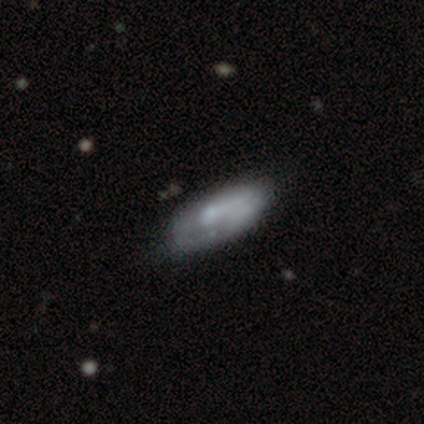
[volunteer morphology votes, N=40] Q: Smooth or featured?
A: featured or disk (57%); runner-up: smooth (42%)
Q: Edge-on disk?
A: no (74%); runner-up: yes (26%)
Q: Bar?
A: no (59%); runner-up: weak (29%)
Q: Spiral arms?
A: yes (53%); runner-up: no (47%)
Q: Spiral winding?
A: tight (44%); runner-up: loose (33%)
Q: Spiral arm count?
A: 1 (44%); tied with: can't tell (44%)
Q: Bulge size?
A: none (41%); runner-up: moderate (35%)
Q: Merging?
A: none (30%); runner-up: minor disturbance (28%)